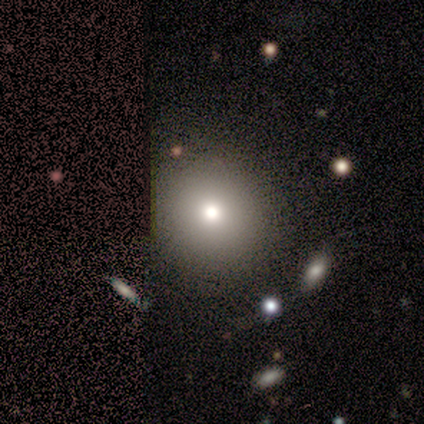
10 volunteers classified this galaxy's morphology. A smooth galaxy with no disk features (90%) that is round (100%). Merging: none (89%).